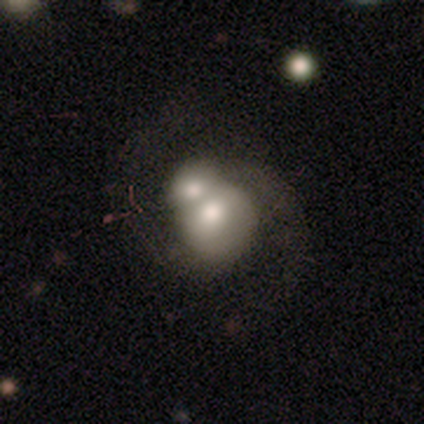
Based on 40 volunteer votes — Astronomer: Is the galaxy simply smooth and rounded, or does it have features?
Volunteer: featured or disk — 50% (runner-up: smooth, 45%).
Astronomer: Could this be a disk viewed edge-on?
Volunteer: no — 100%.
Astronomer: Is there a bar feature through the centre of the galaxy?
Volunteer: no — 65%.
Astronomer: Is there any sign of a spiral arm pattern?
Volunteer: yes — 65%.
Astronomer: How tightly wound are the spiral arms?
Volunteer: loose — 62% (runner-up: medium, 38%).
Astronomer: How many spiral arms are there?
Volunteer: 2 — 92%.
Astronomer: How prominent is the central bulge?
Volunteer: moderate — 80%.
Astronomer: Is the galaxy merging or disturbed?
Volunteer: merger — 87%.